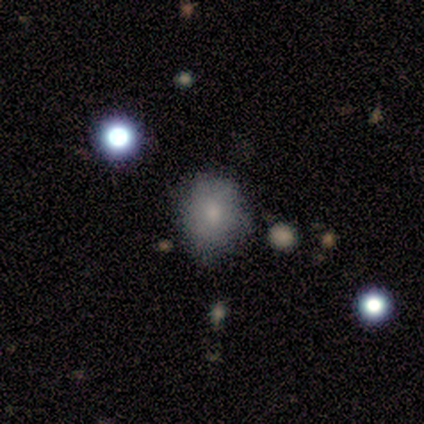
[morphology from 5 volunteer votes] Q: Smooth or featured?
A: smooth (80%); runner-up: featured or disk (20%)
Q: How rounded?
A: round (75%); runner-up: in between (25%)
Q: Merging?
A: none (60%); runner-up: minor disturbance (40%)